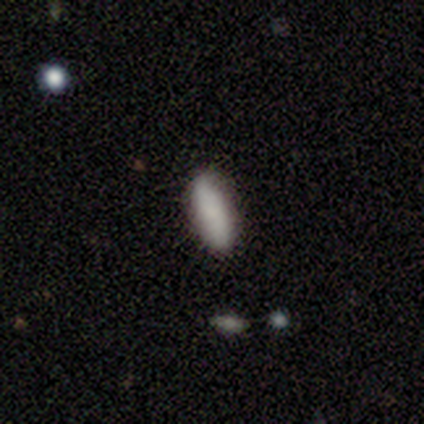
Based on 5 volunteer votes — Smooth or featured?
  - smooth: 80% *
  - featured or disk: 20%
  - star or artifact: 0%
How rounded?
  - in between: 50% * (tied)
  - cigar-shaped: 50% * (tied)
  - round: 0%
Merging?
  - none: 100% *
  - minor disturbance: 0%
  - major disturbance: 0%
  - merger: 0%